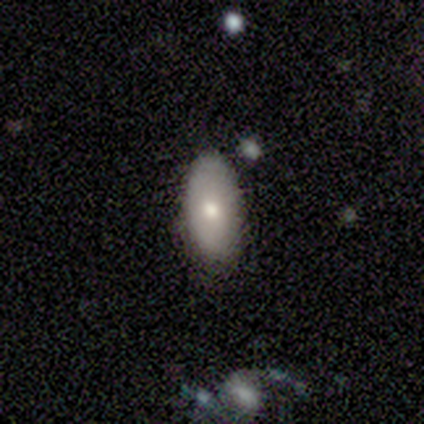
smooth 67%, star or artifact 33%, featured or disk 0%. Down the decision tree: how rounded — in between (100%); merging — none (100%).